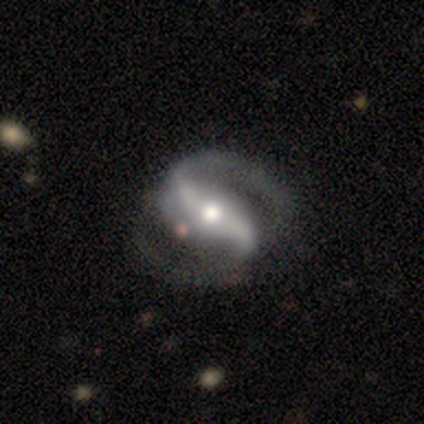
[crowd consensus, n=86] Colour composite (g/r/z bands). It shows a featured or disk galaxy (97%) with a strong bar (54%), 2 (95%) medium (56%) spiral arms (98%) and a moderate central bulge (70%). Merging: none (69%).